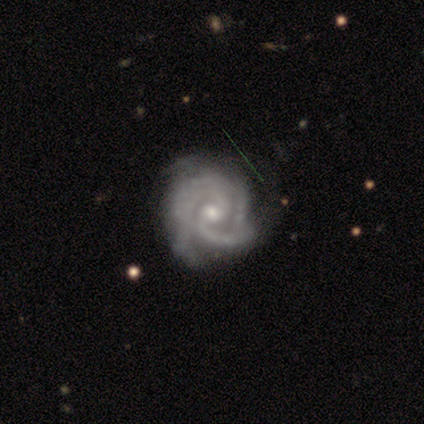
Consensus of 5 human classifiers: smooth-or-featured: featured or disk: 80% | smooth: 20% | star or artifact: 0%
  disk-edge-on: no: 100% | yes: 0%
    bar: weak: 50% (tied) | no: 50% (tied) | strong: 0%
    has-spiral-arms: yes: 75% | no: 25%
      spiral-winding: medium: 67% | tight: 33% | loose: 0%
      spiral-arm-count: 2: 67% | 3: 33% | 1: 0% | 4: 0% | more than 4: 0% | can't tell: 0%
    bulge-size: small: 50% | large: 25% | moderate: 25% | dominant: 0% | none: 0%
  merging: none: 100% | minor disturbance: 0% | major disturbance: 0% | merger: 0%